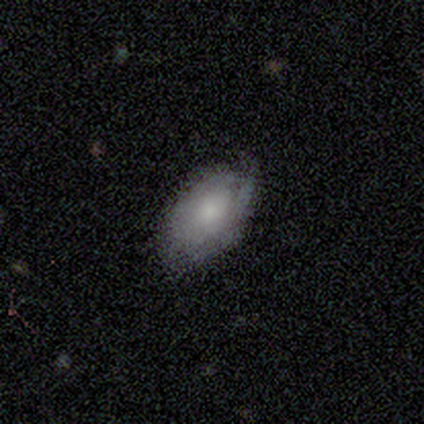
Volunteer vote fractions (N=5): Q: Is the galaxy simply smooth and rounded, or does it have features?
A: smooth — 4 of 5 (80%).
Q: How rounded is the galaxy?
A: in between — 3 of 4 (75%).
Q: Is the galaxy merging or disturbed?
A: none — 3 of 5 (60%).